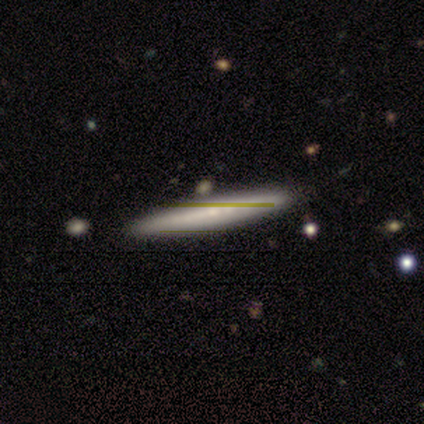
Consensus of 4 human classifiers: A featured or disk galaxy (100%) viewed edge-on (75%) with no central bulge (100%).

Vote fractions:
- Smooth or featured? featured or disk: 100% / smooth: 0% / star or artifact: 0%
- Edge-on disk? yes: 75% / no: 25%
- Edge-on bulge? none: 100% / boxy: 0% / rounded: 0%
- Merging? none: 75% / minor disturbance: 25% / major disturbance: 0% / merger: 0%